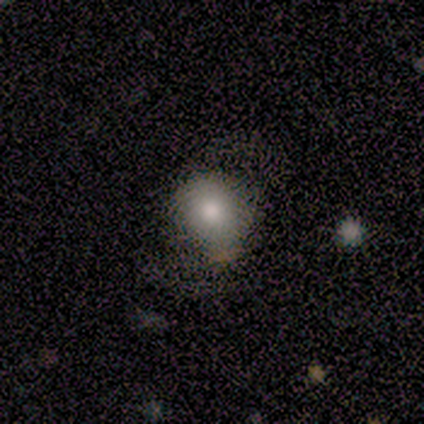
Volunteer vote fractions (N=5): A smooth galaxy with no disk features (100%) that is round (100%).

Vote fractions:
- Smooth or featured? smooth: 100% / featured or disk: 0% / star or artifact: 0%
- How rounded? round: 100% / in between: 0% / cigar-shaped: 0%
- Merging? none: 40% (tied) / minor disturbance: 40% (tied) / major disturbance: 20% / merger: 0%